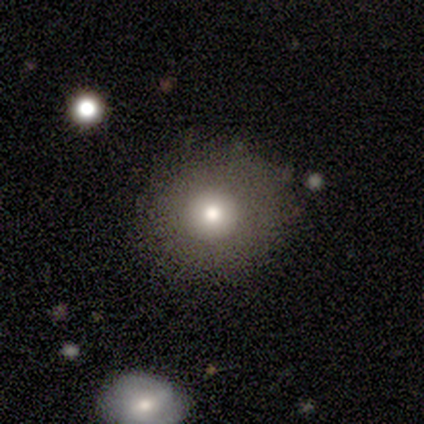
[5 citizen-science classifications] Smooth or featured? 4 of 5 (80%) said smooth. How rounded? 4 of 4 (100%) said round. Merging? 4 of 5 (80%) said none.